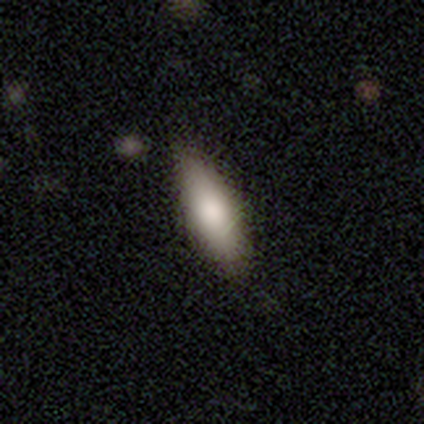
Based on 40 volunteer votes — smooth_or_featured: smooth (p=0.82) [alt: featured or disk p=0.17]
how_rounded: in between (p=0.67) [alt: cigar-shaped p=0.33]
merging: none (p=0.72) [alt: minor disturbance p=0.07]